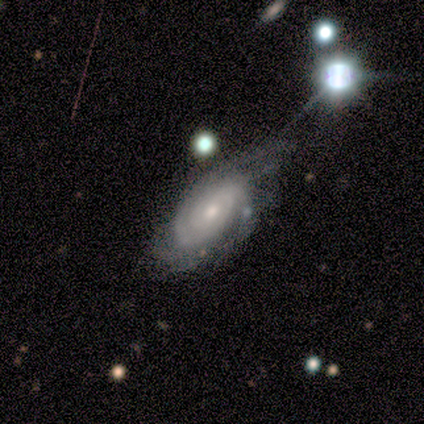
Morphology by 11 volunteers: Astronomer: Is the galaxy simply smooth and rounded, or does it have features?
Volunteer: featured or disk — 82%.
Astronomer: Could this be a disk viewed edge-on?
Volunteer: no — 100%.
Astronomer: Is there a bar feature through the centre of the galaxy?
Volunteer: no — 56% (runner-up: weak, 44%).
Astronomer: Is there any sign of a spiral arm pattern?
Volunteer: yes — 100%.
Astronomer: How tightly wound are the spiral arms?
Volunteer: tight — 67%.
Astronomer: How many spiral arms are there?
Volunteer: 2 — 44% (runner-up: 3, 33%).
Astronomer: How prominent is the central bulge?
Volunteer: moderate — 56% (runner-up: small, 33%).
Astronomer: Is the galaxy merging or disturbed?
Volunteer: none — 50% (runner-up: major disturbance, 30%).